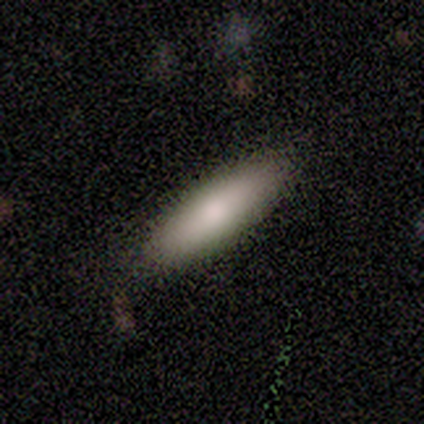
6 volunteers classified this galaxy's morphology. A smooth galaxy with no disk features (100%) that is in between round and cigar-shaped (50%, tied with cigar-shaped).

Vote fractions:
- Smooth or featured? smooth: 100% / featured or disk: 0% / star or artifact: 0%
- How rounded? in between: 50% (tied) / cigar-shaped: 50% (tied) / round: 0%
- Merging? none: 83% / minor disturbance: 17% / major disturbance: 0% / merger: 0%